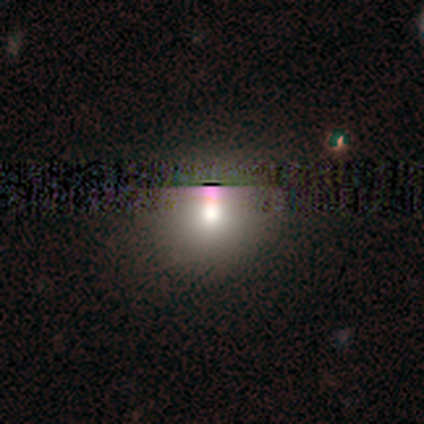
A smooth galaxy with no disk features (65%) that is round (100%).

Vote fractions:
- Smooth or featured? smooth: 65% / star or artifact: 35% / featured or disk: 0%
- How rounded? round: 100% / in between: 0% / cigar-shaped: 0%
- Merging? none: 82% / minor disturbance: 18% / major disturbance: 0% / merger: 0%